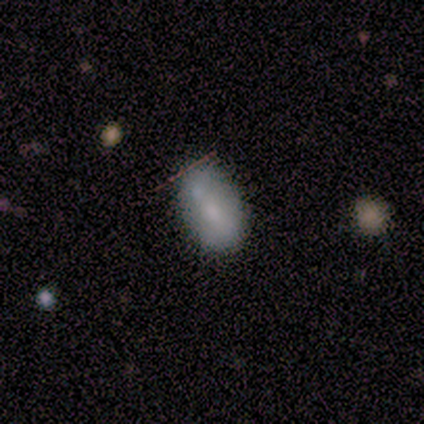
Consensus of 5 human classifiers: Morphology: type=smooth (80%); roundness=in between (100%); merging=none (100%).